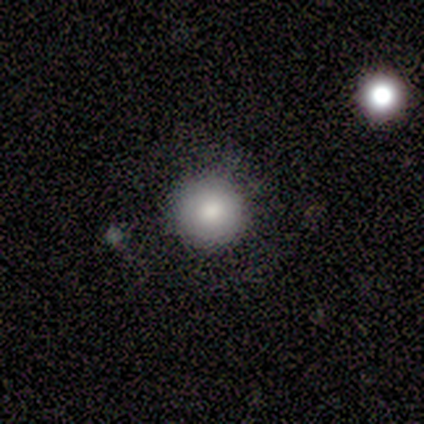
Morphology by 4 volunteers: Q: Smooth or featured?
A: smooth (100%)
Q: How rounded?
A: round (100%)
Q: Merging?
A: none (100%)